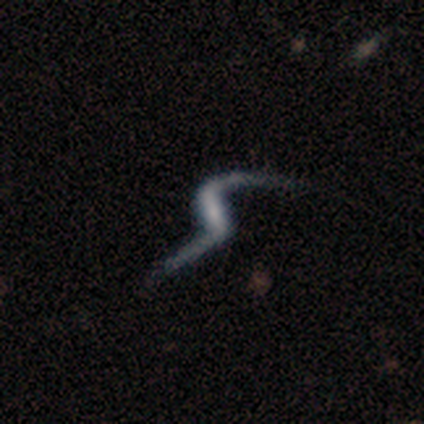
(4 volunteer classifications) A featured or disk galaxy (50%, tied with star or artifact) with a strong bar (50%, tied with weak), 2 (100%) medium (50%, tied with loose) spiral arms (100%) and a small central bulge (50%, tied with none). Merging: minor disturbance (50%, tied with major disturbance).